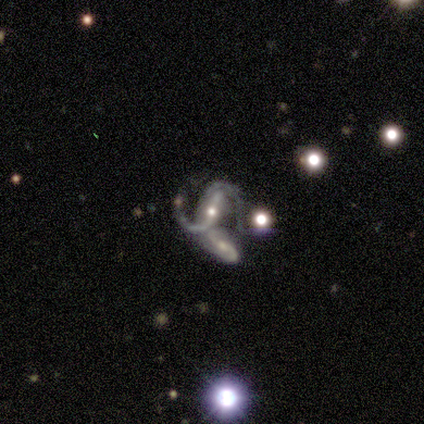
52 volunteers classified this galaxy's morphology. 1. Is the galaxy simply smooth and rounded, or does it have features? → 90% featured or disk, 8% star or artifact, 2% smooth.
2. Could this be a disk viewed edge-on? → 91% no, 9% yes.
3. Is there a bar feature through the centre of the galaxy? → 44% strong, 35% weak, 21% no.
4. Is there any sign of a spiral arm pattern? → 98% yes, 2% no.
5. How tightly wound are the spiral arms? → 48% loose, 40% medium, 12% tight.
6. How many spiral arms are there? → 83% 2, 5% 3, 5% can't tell, 2% 1, 2% 4, 2% more than 4.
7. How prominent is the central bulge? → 63% moderate, 30% small, 5% none, 2% large, 0% dominant.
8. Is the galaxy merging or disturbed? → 62% merger, 17% none, 12% minor disturbance, 8% major disturbance.